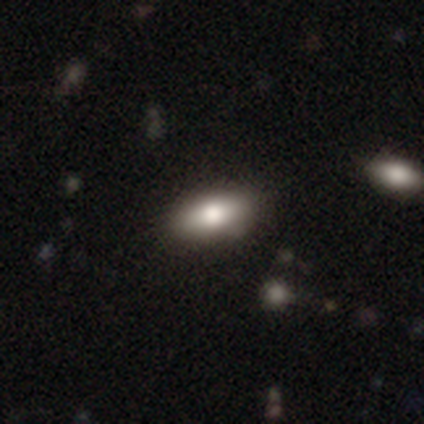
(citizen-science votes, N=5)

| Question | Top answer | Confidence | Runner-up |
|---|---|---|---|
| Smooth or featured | featured or disk | 60% | smooth (40%) |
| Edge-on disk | no | 100% | — |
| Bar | no | 100% | — |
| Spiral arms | no | 100% | — |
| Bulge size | large | 33% | tied: moderate (33%), small (33%) |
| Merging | none | 80% | minor disturbance (20%) |